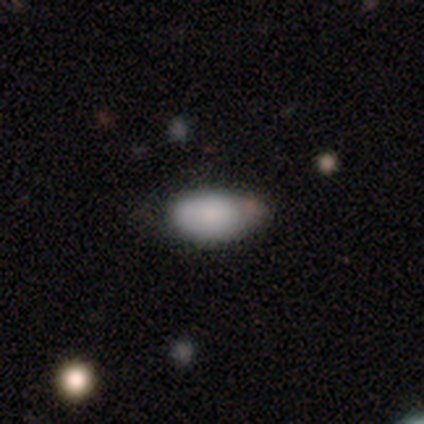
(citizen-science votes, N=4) Smooth or featured?
  - smooth: 75% *
  - featured or disk: 25%
  - star or artifact: 0%
How rounded?
  - in between: 100% *
  - round: 0%
  - cigar-shaped: 0%
Merging?
  - none: 100% *
  - minor disturbance: 0%
  - major disturbance: 0%
  - merger: 0%